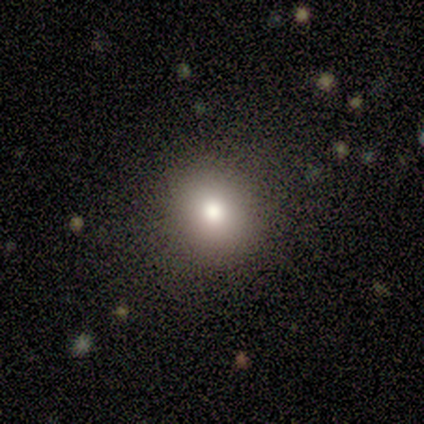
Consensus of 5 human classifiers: smooth_or_featured: smooth (p=0.80) [alt: featured or disk p=0.20]
how_rounded: round (p=1.00)
merging: none (p=0.80) [alt: minor disturbance p=0.20]